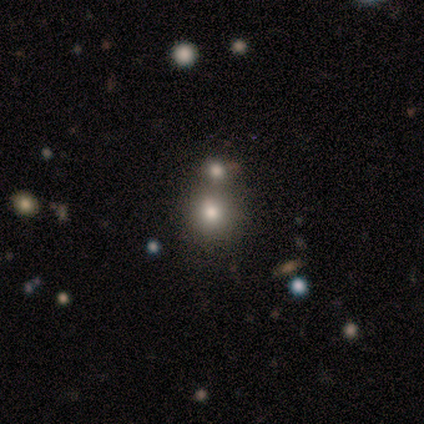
A smooth galaxy with no disk features (80%) that is round (100%).

Vote fractions:
- Smooth or featured? smooth: 80% / featured or disk: 20% / star or artifact: 0%
- How rounded? round: 100% / in between: 0% / cigar-shaped: 0%
- Merging? minor disturbance: 40% (tied) / merger: 40% (tied) / none: 20% / major disturbance: 0%